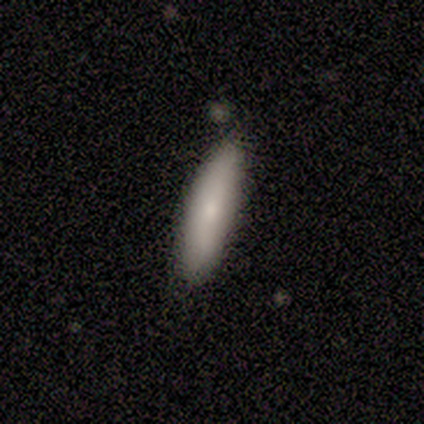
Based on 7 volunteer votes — smooth-or-featured: smooth: 57% | featured or disk: 43% | star or artifact: 0%
  how-rounded: cigar-shaped: 75% | in between: 25% | round: 0%
  merging: none: 86% | minor disturbance: 14% | major disturbance: 0% | merger: 0%